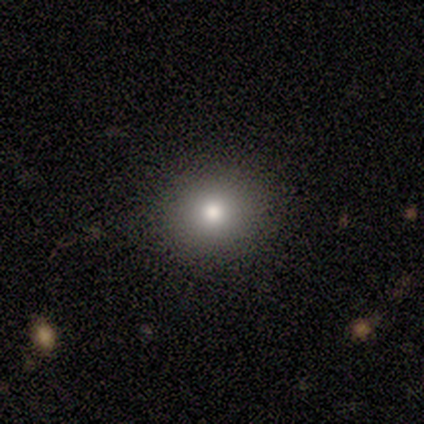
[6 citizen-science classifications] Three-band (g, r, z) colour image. It shows a smooth galaxy with no disk features (83%) that is round (80%). Merging: none (100%).